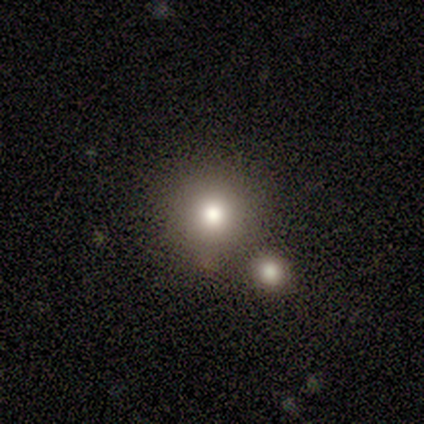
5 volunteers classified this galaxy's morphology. Smooth or featured?
  - smooth: 80% *
  - star or artifact: 20%
  - featured or disk: 0%
How rounded?
  - round: 100% *
  - in between: 0%
  - cigar-shaped: 0%
Merging?
  - none: 100% *
  - minor disturbance: 0%
  - major disturbance: 0%
  - merger: 0%